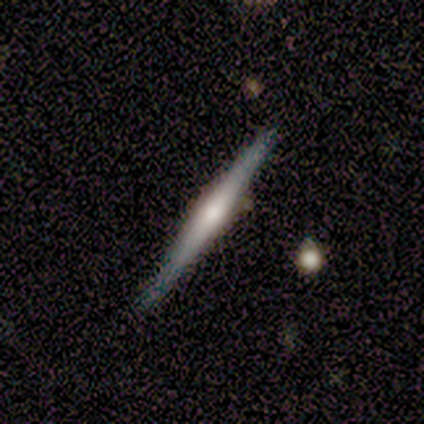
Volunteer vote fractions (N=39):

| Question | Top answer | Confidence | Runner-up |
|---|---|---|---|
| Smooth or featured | featured or disk | 62% | smooth (33%) |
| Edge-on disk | yes | 96% | no (4%) |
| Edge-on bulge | rounded | 61% | none (30%) |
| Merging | none | 76% | minor disturbance (19%) |